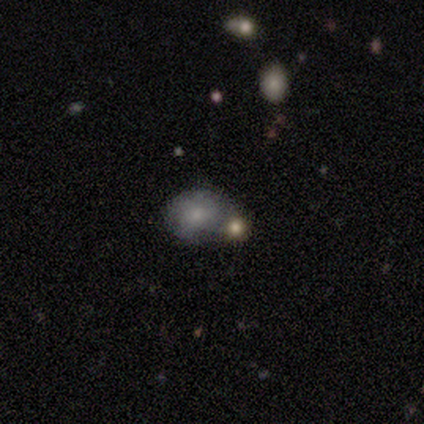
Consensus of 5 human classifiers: Smooth or featured? 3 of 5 (60%) said smooth. How rounded? 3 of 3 (100%) said in between. Merging? 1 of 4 (25%, tied with minor disturbance, major disturbance and merger) said none.